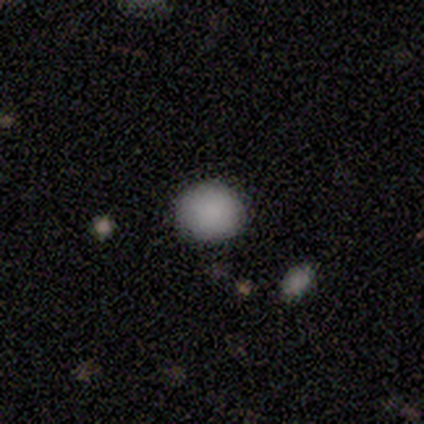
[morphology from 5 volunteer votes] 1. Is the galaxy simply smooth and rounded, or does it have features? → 100% smooth, 0% featured or disk, 0% star or artifact.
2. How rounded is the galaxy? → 100% round, 0% in between, 0% cigar-shaped.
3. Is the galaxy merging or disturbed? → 80% none, 20% minor disturbance, 0% major disturbance, 0% merger.